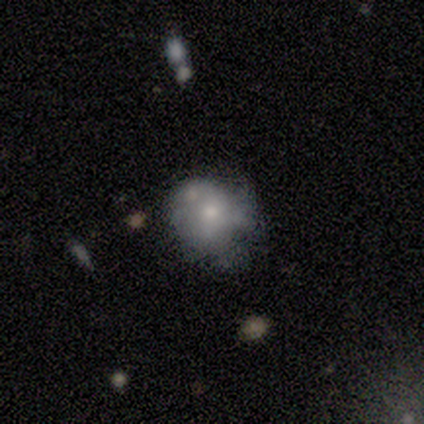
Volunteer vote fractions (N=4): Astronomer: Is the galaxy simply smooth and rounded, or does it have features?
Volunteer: smooth — 50%.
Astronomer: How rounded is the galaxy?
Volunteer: round — 100%.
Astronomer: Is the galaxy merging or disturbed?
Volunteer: none — 33%, tied with minor disturbance and major disturbance at 33%.